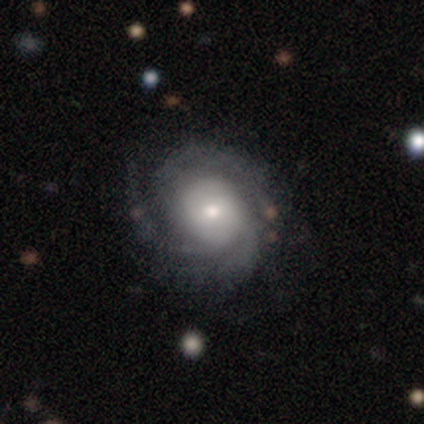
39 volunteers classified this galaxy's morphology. A featured or disk galaxy (82%) with no bar (52%), 3 (50%) tight (57%) spiral arms (97%) and a moderate central bulge (48%).

Vote fractions:
- Smooth or featured? featured or disk: 82% / smooth: 10% / star or artifact: 8%
- Edge-on disk? no: 91% / yes: 9%
- Bar? no: 52% / weak: 41% / strong: 7%
- Spiral arms? yes: 97% / no: 3%
- Spiral winding? tight: 57% / medium: 32% / loose: 11%
- Spiral arm count? 3: 50% / can't tell: 25% / 2: 18% / 4: 7% / 1: 0% / more than 4: 0%
- Bulge size? moderate: 48% / small: 38% / large: 14% / dominant: 0% / none: 0%
- Merging? none: 78% / minor disturbance: 11% / major disturbance: 8% / merger: 3%